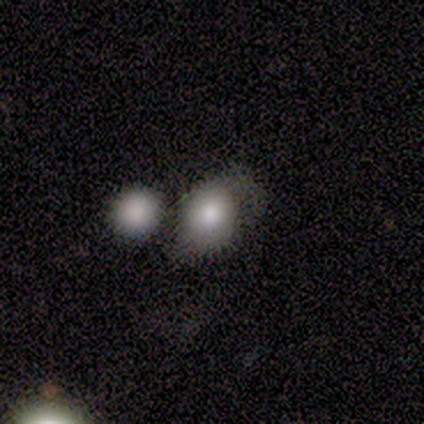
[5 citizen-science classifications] Overall: smooth (60%; featured or disk 40%). How rounded: round (100%). Merging: major disturbance (60%; none 20%).